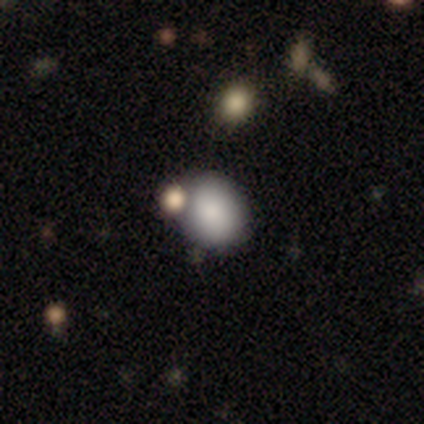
smooth 85%, star or artifact 9%, featured or disk 6%. Down the decision tree: how rounded — round (60%); merging — none (74%).